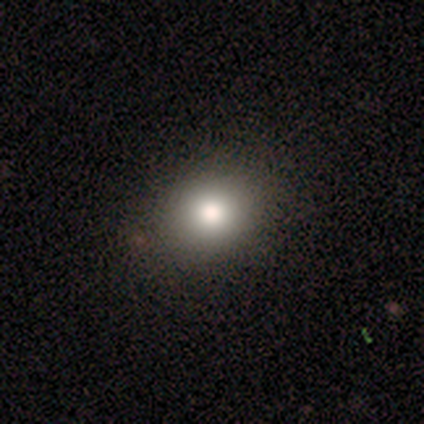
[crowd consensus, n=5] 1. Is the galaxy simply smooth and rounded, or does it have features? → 100% smooth, 0% featured or disk, 0% star or artifact.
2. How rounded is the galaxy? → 80% round, 20% in between, 0% cigar-shaped.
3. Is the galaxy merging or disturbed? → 100% none, 0% minor disturbance, 0% major disturbance, 0% merger.